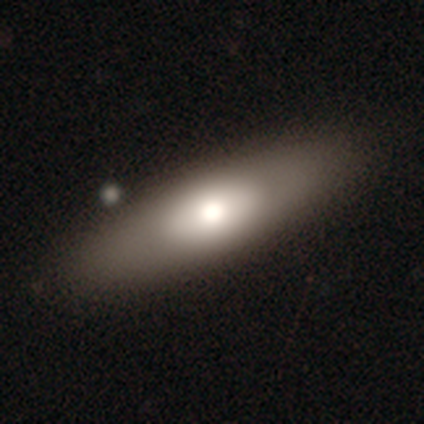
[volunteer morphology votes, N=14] Smooth or featured? smooth (71%)
How rounded? in between (60%)
Merging? none (86%)